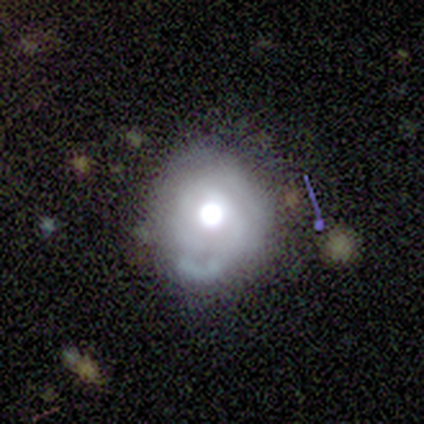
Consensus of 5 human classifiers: This is clearly a featured or disk galaxy (80%). It is clearly not viewed edge-on (100%). Bar: likely no (75%). Spiral arm pattern: possibly yes (50%, tied with no). Spiral arm count: possibly 2 (50%, tied with can't tell). Spiral winding: possibly tight (50%, tied with loose). Central bulge: likely moderate (75%). Merging: likely none (75%).